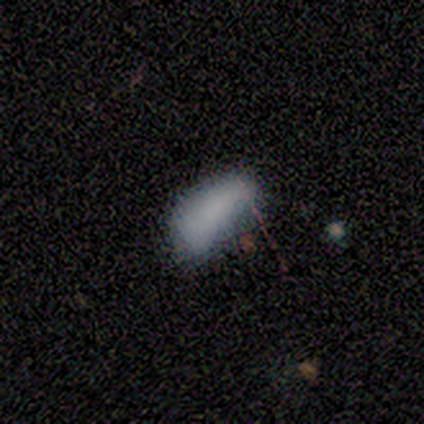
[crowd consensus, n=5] smooth-or-featured: smooth: 60% | featured or disk: 20% | star or artifact: 20%
  how-rounded: in between: 67% | cigar-shaped: 33% | round: 0%
  merging: none: 50% | minor disturbance: 25% | major disturbance: 25% | merger: 0%